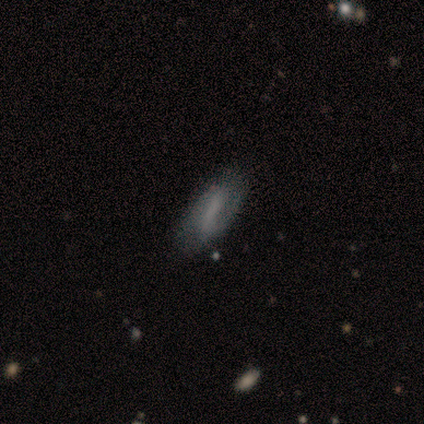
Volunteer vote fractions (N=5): smooth_or_featured: featured or disk (p=0.60) [alt: smooth p=0.20]
disk_edge_on: no (p=1.00)
bar: strong (p=1.00)
has_spiral_arms: yes (p=0.67) [alt: no p=0.33]
spiral_winding: tight (p=1.00)
spiral_arm_count: 2 (p=1.00)
bulge_size: none (p=1.00)
merging: none (p=0.75) [alt: minor disturbance p=0.25]